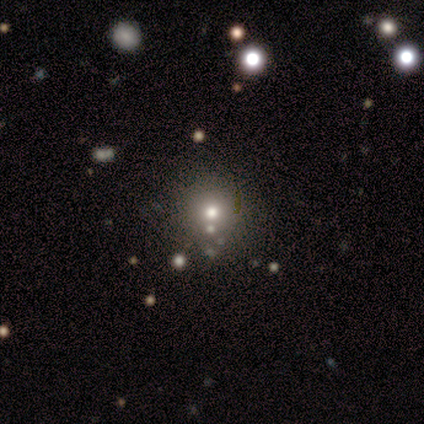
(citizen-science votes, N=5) Smooth or featured: smooth — 60% (featured or disk — 20%)
How rounded: round — 100%
Merging: none — 75% (minor disturbance — 25%)